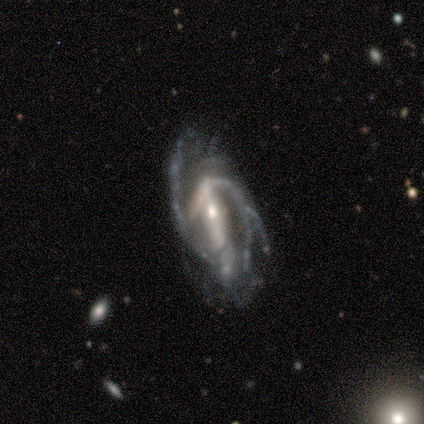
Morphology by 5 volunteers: Overall: featured or disk (100%). Edge-on disk: no (100%). Bar: strong (60%; no 40%). Spiral arms: yes (80%). Spiral arm count: 2 (50%, tied with can't tell). Spiral winding: loose (50%; tight 25%). Bulge size: moderate (60%; small 40%). Merging: none (60%; major disturbance 40%).